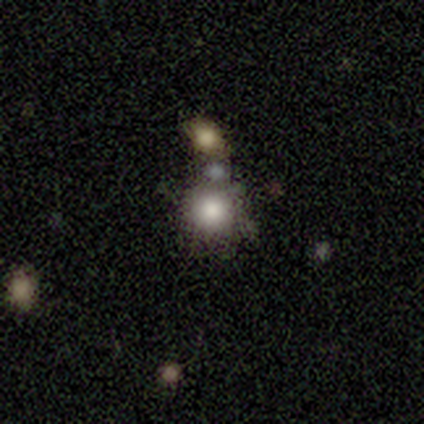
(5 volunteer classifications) This appears to be a smooth galaxy with no disk features (80%) that is round (100%). Merging: none (50%, tied with merger).